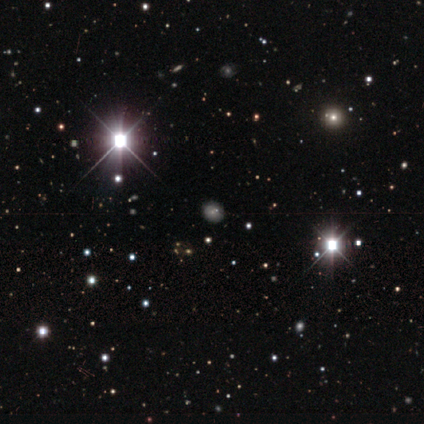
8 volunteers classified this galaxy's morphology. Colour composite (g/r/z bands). It shows a star or artifact, not a galaxy (75%).